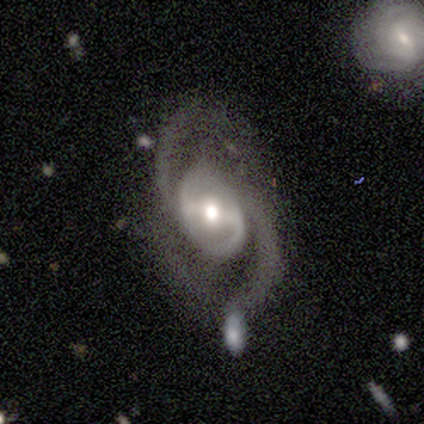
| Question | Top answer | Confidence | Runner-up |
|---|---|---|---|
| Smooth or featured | featured or disk | 100% | — |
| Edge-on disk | no | 100% | — |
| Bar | weak | 60% | strong (20%) |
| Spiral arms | yes | 100% | — |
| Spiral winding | medium | 60% | tight (40%) |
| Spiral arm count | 2 | 100% | — |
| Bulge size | small | 60% | moderate (40%) |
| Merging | none | 60% | minor disturbance (40%) |